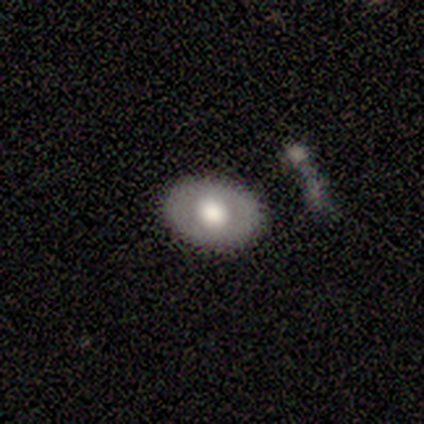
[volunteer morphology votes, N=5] smooth_or_featured: smooth (p=0.60) [alt: featured or disk p=0.40]
how_rounded: in between (p=0.67) [alt: round p=0.33]
merging: none (p=0.80) [alt: minor disturbance p=0.20]